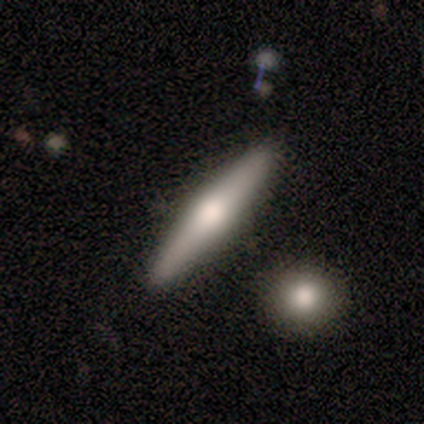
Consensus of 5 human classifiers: A smooth galaxy with no disk features (80%) that is cigar-shaped (100%). Merging: none (100%).